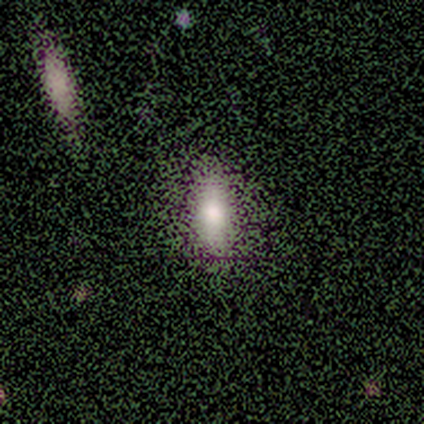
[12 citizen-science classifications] Overall: smooth (58%; star or artifact 42%). How rounded: cigar-shaped (57%; in between 43%). Merging: none (86%).